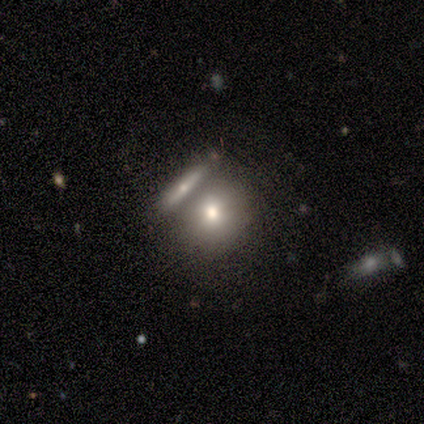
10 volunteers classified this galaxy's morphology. Smooth or featured: smooth — 70% (featured or disk — 30%)
How rounded: round — 71% (in between — 29%)
Merging: none — 40% (merger — 30%)